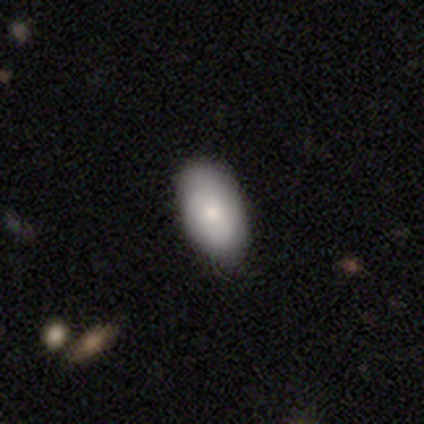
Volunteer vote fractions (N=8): Smooth or featured? 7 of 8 (88%) said smooth. How rounded? 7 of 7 (100%) said in between. Merging? 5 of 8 (62%) said none.